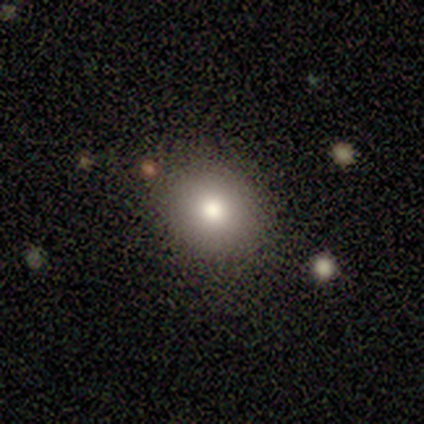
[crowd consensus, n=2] Volunteers were most divided on "smooth or featured" (2-way tie): smooth: 50%, featured or disk: 50%, star or artifact: 0%; "merging" (2-way tie): none: 50%, minor disturbance: 50%, major disturbance: 0%, merger: 0%. More confident: how rounded — round (100%).